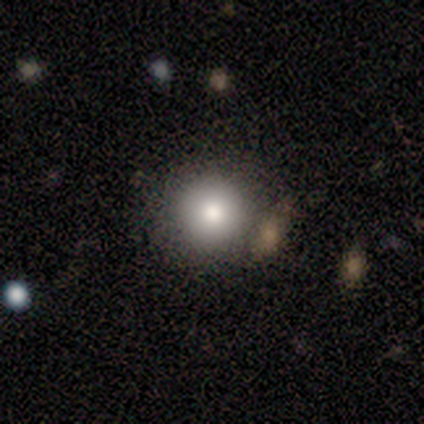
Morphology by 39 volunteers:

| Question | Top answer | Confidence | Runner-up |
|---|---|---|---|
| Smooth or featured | smooth | 79% | featured or disk (10%) |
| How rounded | round | 90% | in between (6%) |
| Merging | none | 80% | merger (14%) |